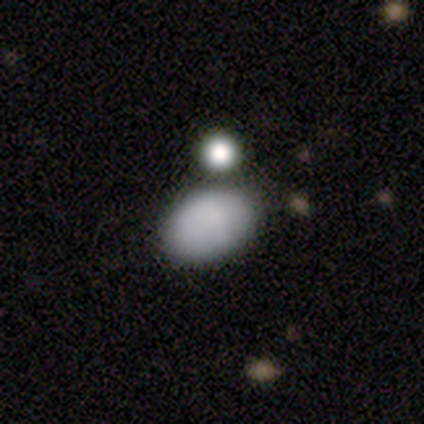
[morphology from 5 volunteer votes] Smooth or featured?
  - smooth: 60% *
  - featured or disk: 40%
  - star or artifact: 0%
How rounded?
  - in between: 67% *
  - round: 33%
  - cigar-shaped: 0%
Merging?
  - none: 40% *
  - minor disturbance: 20%
  - major disturbance: 20%
  - merger: 20%